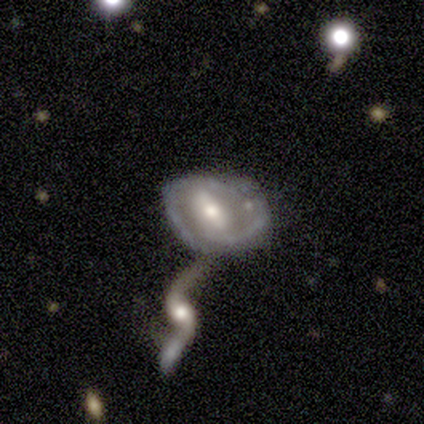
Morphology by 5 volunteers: A featured or disk galaxy (80%) with a weak bar (75%), no spiral arms (75%) and a moderate central bulge (75%).

Vote fractions:
- Smooth or featured? featured or disk: 80% / smooth: 20% / star or artifact: 0%
- Edge-on disk? no: 100% / yes: 0%
- Bar? weak: 75% / strong: 25% / no: 0%
- Spiral arms? no: 75% / yes: 25%
- Bulge size? moderate: 75% / small: 25% / dominant: 0% / large: 0% / none: 0%
- Merging? merger: 80% / minor disturbance: 20% / none: 0% / major disturbance: 0%